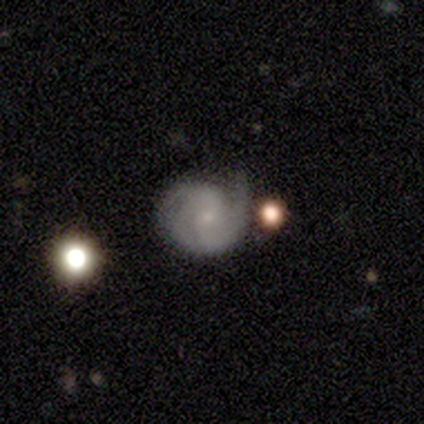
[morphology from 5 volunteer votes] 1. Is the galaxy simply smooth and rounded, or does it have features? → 80% featured or disk, 20% star or artifact, 0% smooth.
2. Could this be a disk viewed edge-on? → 100% no, 0% yes.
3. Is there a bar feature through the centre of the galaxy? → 50% weak (tied), 50% no (tied), 0% strong.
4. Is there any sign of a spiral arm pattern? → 50% yes (tied), 50% no (tied).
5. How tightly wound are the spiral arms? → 100% medium, 0% tight, 0% loose.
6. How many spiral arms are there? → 50% 2 (tied), 50% 3 (tied), 0% 1, 0% 4, 0% more than 4, 0% can't tell.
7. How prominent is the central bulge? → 50% small, 25% moderate, 25% none, 0% dominant, 0% large.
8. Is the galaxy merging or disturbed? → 100% none, 0% minor disturbance, 0% major disturbance, 0% merger.